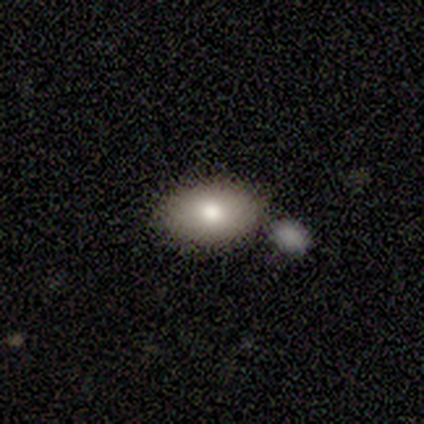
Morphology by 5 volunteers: Smooth or featured? 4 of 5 (80%) said smooth. How rounded? 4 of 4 (100%) said in between. Merging? 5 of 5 (100%) said none.